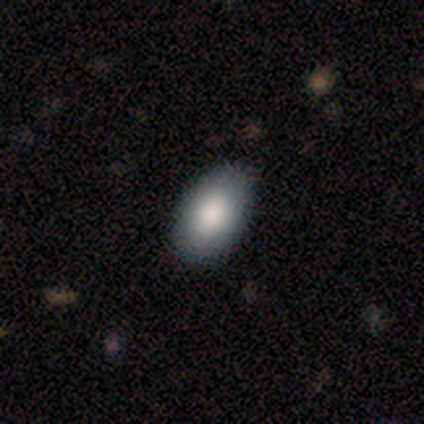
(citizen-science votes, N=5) Morphology: type=smooth (100%); roundness=in between (100%); merging=none (80%).